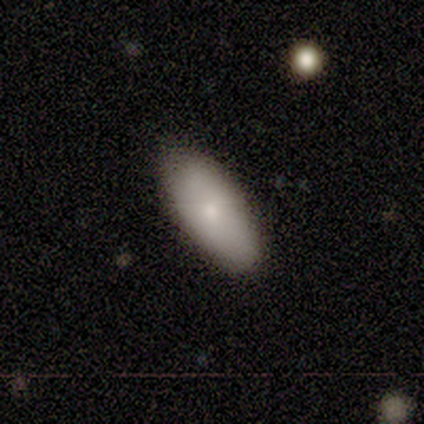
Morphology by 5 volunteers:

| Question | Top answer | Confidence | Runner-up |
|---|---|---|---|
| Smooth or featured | smooth | 80% | featured or disk (20%) |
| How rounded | in between | 100% | — |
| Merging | none | 80% | minor disturbance (20%) |